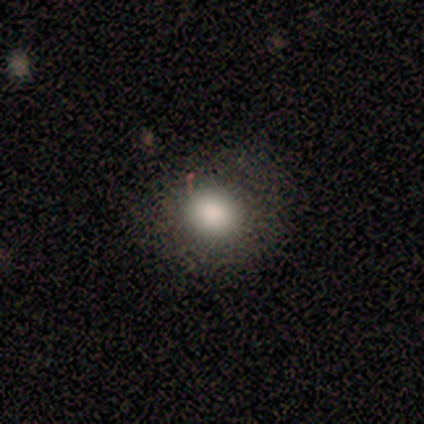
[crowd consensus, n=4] smooth_or_featured: smooth (p=0.75) [alt: featured or disk p=0.25]
how_rounded: round (p=1.00)
merging: none (p=0.75) [alt: minor disturbance p=0.25]